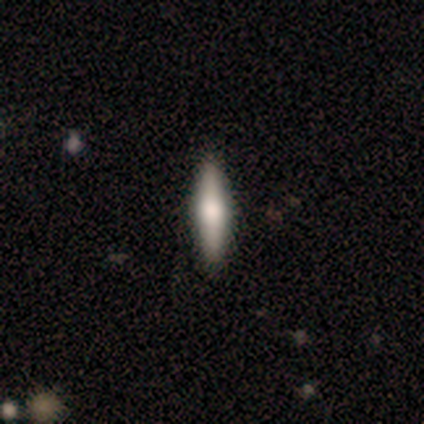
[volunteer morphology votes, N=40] Smooth or featured: smooth — 60% (featured or disk — 35%)
How rounded: cigar-shaped — 71% (in between — 29%)
Merging: none — 89% (minor disturbance — 8%)